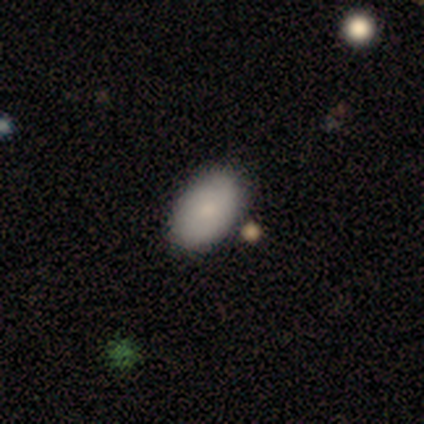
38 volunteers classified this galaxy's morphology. Smooth or featured? 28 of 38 (74%) said smooth. How rounded? 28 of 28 (100%) said in between. Merging? 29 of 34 (85%) said none.